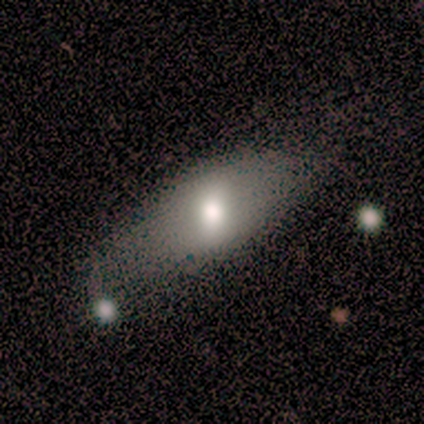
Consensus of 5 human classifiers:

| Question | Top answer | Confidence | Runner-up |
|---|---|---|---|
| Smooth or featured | smooth | 60% | featured or disk (40%) |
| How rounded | cigar-shaped | 67% | in between (33%) |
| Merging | none | 40% | tied: minor disturbance (40%) |